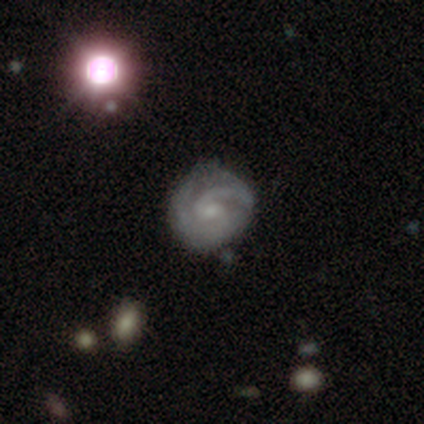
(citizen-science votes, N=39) Volunteers were most divided on "bar": weak: 50%, no: 47%, strong: 3%. More confident: edge-on disk — no (100%); spiral arms — yes (94%); smooth or featured — featured or disk (87%); spiral arm count — 2 (72%); merging — none (68%); bulge size — small (59%); spiral winding — tight (53%).